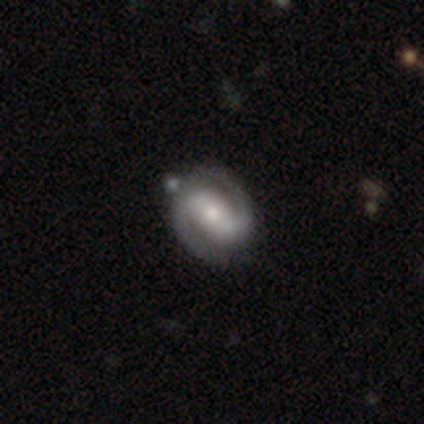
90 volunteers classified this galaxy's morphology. Volunteers were most divided on "bulge size" (2-way tie): moderate: 43%, small: 43%, large: 9%, none: 3%, dominant: 1%. More confident: spiral arm count — 2 (99%); spiral arms — yes (97%); edge-on disk — no (96%); smooth or featured — featured or disk (88%); merging — none (81%); bar — strong (59%); spiral winding — medium (53%).